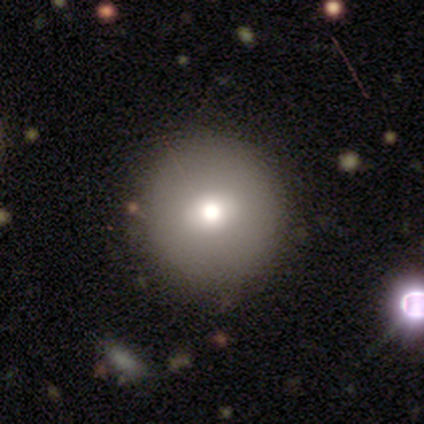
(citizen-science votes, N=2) A smooth galaxy with no disk features (100%) that is round (100%). Merging: none (100%).